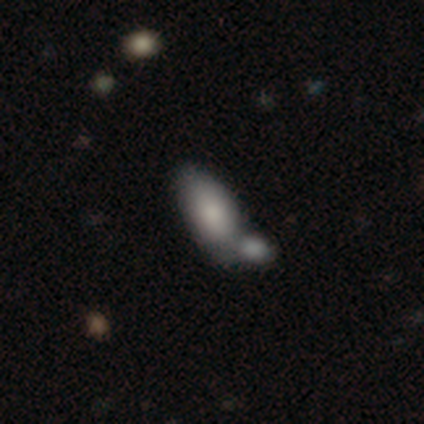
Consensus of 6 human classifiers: A smooth galaxy with no disk features (100%) that is in between round and cigar-shaped (100%).

Vote fractions:
- Smooth or featured? smooth: 100% / featured or disk: 0% / star or artifact: 0%
- How rounded? in between: 100% / round: 0% / cigar-shaped: 0%
- Merging? merger: 83% / none: 17% / minor disturbance: 0% / major disturbance: 0%